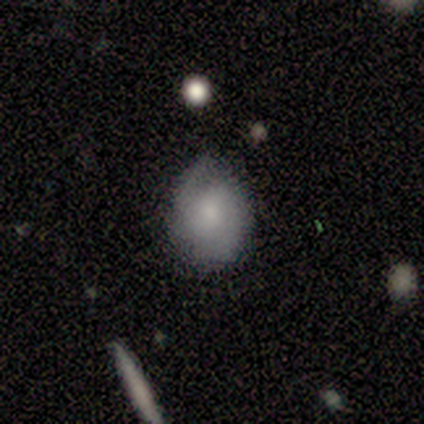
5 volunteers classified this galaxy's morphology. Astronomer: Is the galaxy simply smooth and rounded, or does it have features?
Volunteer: smooth — 60% (runner-up: featured or disk, 40%).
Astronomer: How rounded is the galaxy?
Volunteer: in between — 67%.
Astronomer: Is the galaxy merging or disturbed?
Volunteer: none — 60% (runner-up: minor disturbance, 40%).